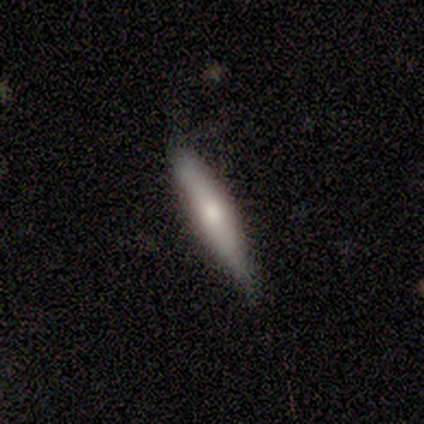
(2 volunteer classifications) Q: Smooth or featured?
A: smooth (50%); tied with: featured or disk (50%)
Q: How rounded?
A: cigar-shaped (100%)
Q: Merging?
A: minor disturbance (100%)